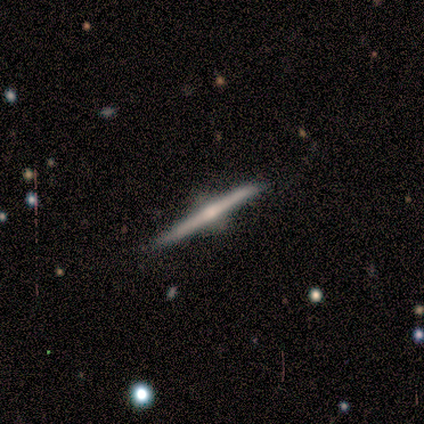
Q: Smooth or featured?
A: featured or disk (100%)
Q: Edge-on disk?
A: yes (100%)
Q: Edge-on bulge?
A: rounded (100%)
Q: Merging?
A: none (80%); runner-up: minor disturbance (20%)